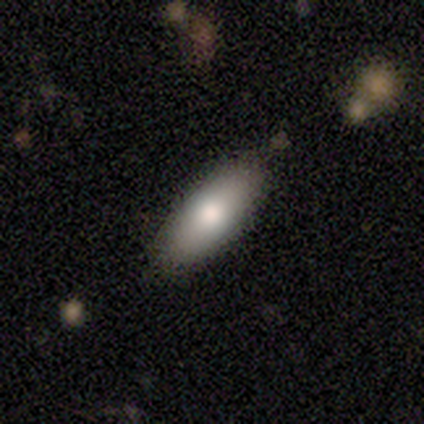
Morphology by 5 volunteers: A smooth galaxy with no disk features (80%) that is in between round and cigar-shaped (75%).

Vote fractions:
- Smooth or featured? smooth: 80% / featured or disk: 20% / star or artifact: 0%
- How rounded? in between: 75% / cigar-shaped: 25% / round: 0%
- Merging? none: 100% / minor disturbance: 0% / major disturbance: 0% / merger: 0%